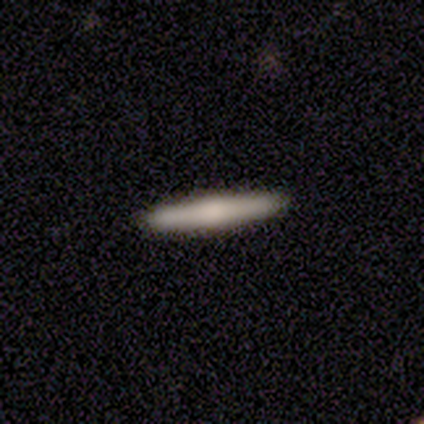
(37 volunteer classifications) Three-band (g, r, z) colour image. It shows a smooth galaxy with no disk features (51%) that is cigar-shaped (100%). Merging: none (92%).